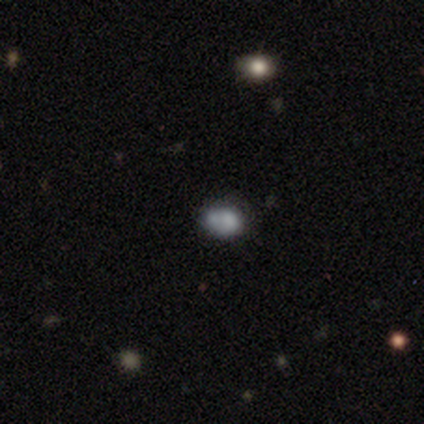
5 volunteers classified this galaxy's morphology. Smooth or featured? smooth (60%)
How rounded? in between (67%)
Merging? minor disturbance (50%)